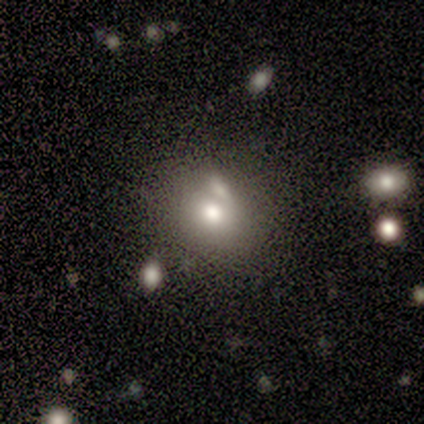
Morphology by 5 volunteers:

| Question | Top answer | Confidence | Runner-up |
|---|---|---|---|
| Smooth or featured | smooth | 80% | star or artifact (20%) |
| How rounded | round | 75% | in between (25%) |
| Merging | none | 75% | merger (25%) |